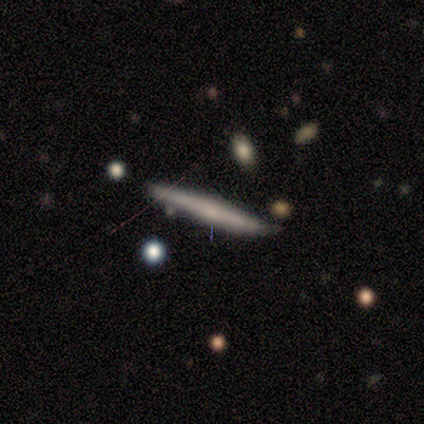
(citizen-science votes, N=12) A smooth galaxy with no disk features (83%) that is cigar-shaped (100%). Merging: none (67%).